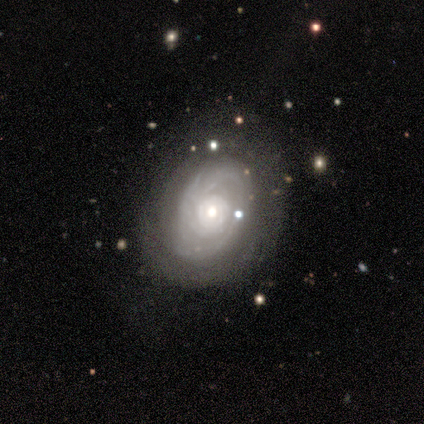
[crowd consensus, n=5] A featured or disk galaxy (100%) with no bar (80%), tight (100%) spiral arms (100%) and a moderate central bulge (100%). Merging: none (80%).